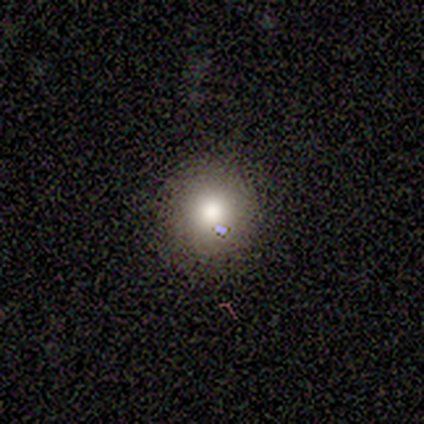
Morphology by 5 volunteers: A smooth galaxy with no disk features (80%) that is round (100%).

Vote fractions:
- Smooth or featured? smooth: 80% / featured or disk: 20% / star or artifact: 0%
- How rounded? round: 100% / in between: 0% / cigar-shaped: 0%
- Merging? none: 80% / minor disturbance: 20% / major disturbance: 0% / merger: 0%